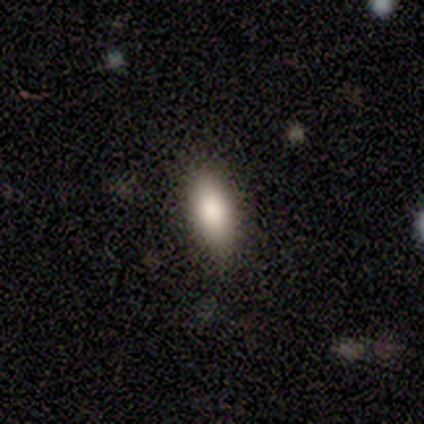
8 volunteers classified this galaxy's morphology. smooth 62%, star or artifact 25%, featured or disk 12%. Down the decision tree: how rounded — in between (100%); merging — none (67%).